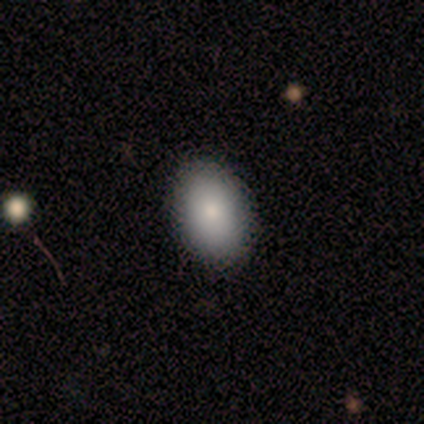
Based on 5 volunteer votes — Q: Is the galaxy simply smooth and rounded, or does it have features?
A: smooth — 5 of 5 (100%).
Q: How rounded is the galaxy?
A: in between — 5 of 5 (100%).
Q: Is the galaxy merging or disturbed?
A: none — 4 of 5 (80%).